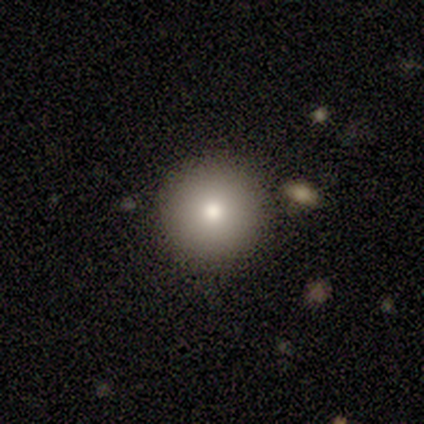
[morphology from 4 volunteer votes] Volunteers were most divided on "merging" (2-way tie): none: 50%, minor disturbance: 50%, major disturbance: 0%, merger: 0%. More confident: smooth or featured — smooth (100%); how rounded — round (100%).